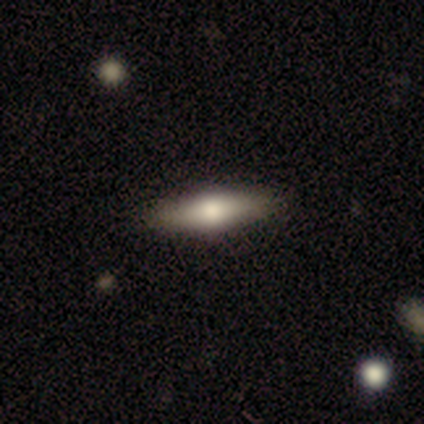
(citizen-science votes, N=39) Volunteers were most divided on "smooth or featured": smooth: 62%, featured or disk: 33%, star or artifact: 5%. More confident: merging — none (89%); how rounded — cigar-shaped (75%).